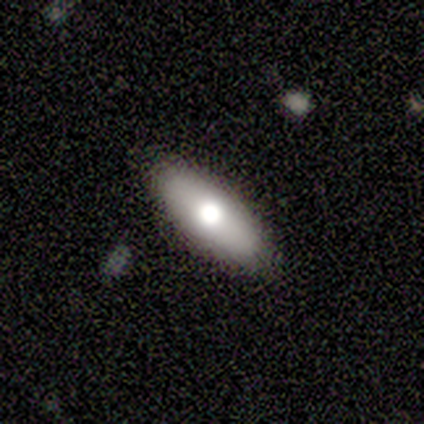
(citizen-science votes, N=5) Smooth or featured? smooth (80%)
How rounded? in between (75%)
Merging? none (100%)